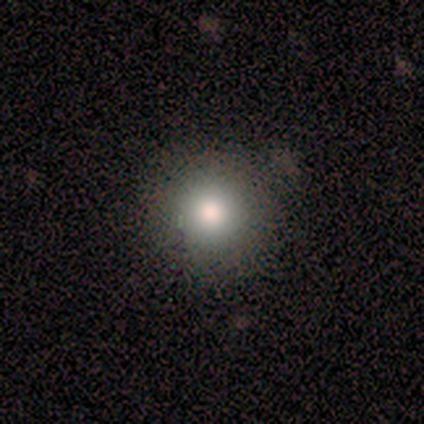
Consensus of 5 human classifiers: smooth_or_featured: smooth (p=1.00)
how_rounded: round (p=1.00)
merging: none (p=0.80) [alt: merger p=0.20]